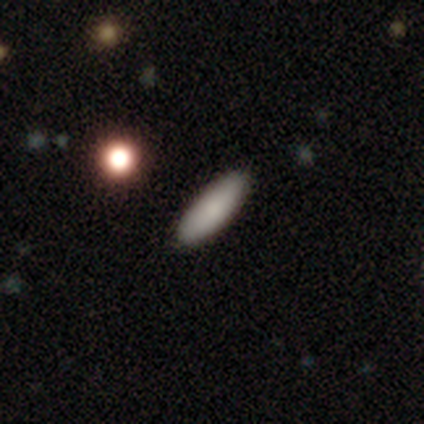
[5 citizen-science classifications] Morphology: type=smooth (100%); roundness=in between (60%); merging=none (100%).